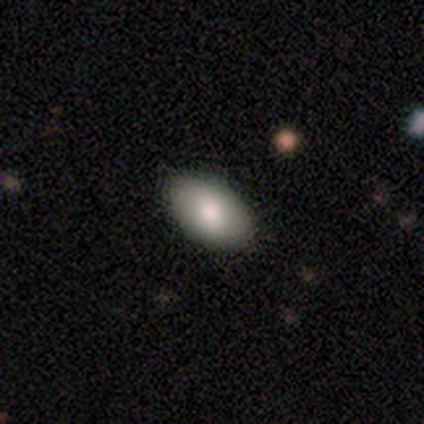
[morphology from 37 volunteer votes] Smooth or featured? 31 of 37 (84%) said smooth. How rounded? 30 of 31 (97%) said in between. Merging? 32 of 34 (94%) said none.